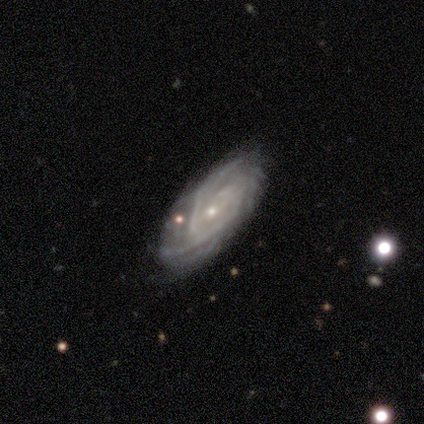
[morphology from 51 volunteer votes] smooth_or_featured: featured or disk (p=0.98) [alt: star or artifact p=0.02]
disk_edge_on: no (p=0.94) [alt: yes p=0.06]
bar: no (p=0.66) [alt: weak p=0.32]
has_spiral_arms: yes (p=0.98) [alt: no p=0.02]
spiral_winding: tight (p=0.76) [alt: medium p=0.20]
spiral_arm_count: can't tell (p=0.48) [alt: 2 p=0.26]
bulge_size: small (p=0.83) [alt: moderate p=0.13]
merging: none (p=0.78) [alt: minor disturbance p=0.22]